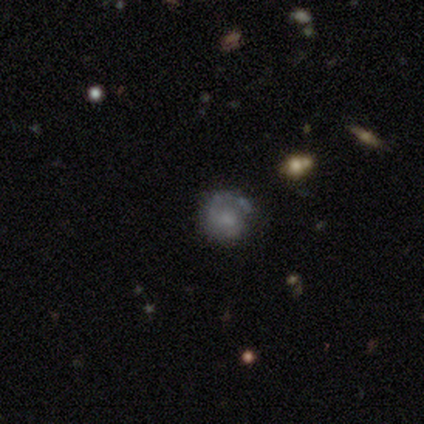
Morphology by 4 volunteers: smooth 50% (tied), featured or disk 50% (tied), star or artifact 0%. Down the decision tree: how rounded — round (100%); merging — minor disturbance (50%).